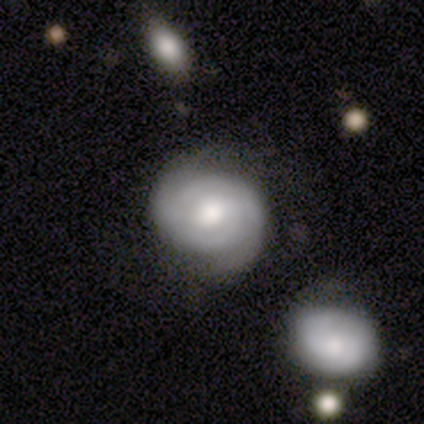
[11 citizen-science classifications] featured or disk 91%, smooth 9%, star or artifact 0%. Down the decision tree: edge-on disk — no (100%); bar — no (60%); spiral arms — yes (100%); spiral arm count — 2 (80%); spiral winding — tight (80%); bulge size — moderate (40%); merging — none (55%).